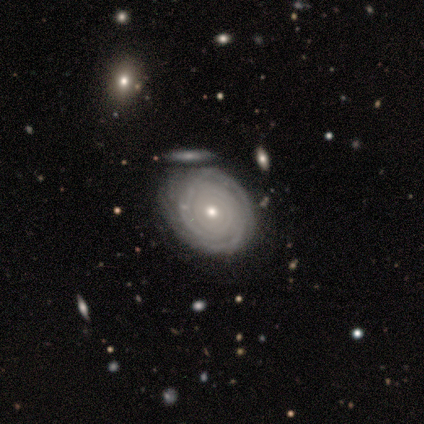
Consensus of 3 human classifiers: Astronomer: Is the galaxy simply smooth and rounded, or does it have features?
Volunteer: featured or disk — 67%.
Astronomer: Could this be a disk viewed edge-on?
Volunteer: no — 100%.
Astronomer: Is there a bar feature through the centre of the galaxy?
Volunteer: strong — 50%, tied with no at 50%.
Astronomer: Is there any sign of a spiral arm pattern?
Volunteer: yes — 100%.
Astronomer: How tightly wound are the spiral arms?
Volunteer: tight — 100%.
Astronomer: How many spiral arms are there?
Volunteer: can't tell — 100%.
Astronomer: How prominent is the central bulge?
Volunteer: dominant — 50%, tied with moderate at 50%.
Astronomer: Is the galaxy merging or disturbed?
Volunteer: none — 67%.